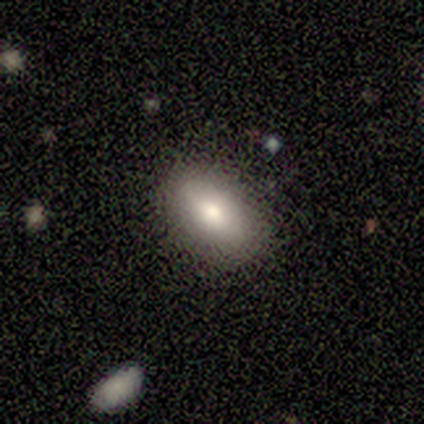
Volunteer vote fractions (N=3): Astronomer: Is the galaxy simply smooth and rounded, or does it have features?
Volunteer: smooth — 67%.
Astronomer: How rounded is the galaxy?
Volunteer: in between — 100%.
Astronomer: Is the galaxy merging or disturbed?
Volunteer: none — 100%.